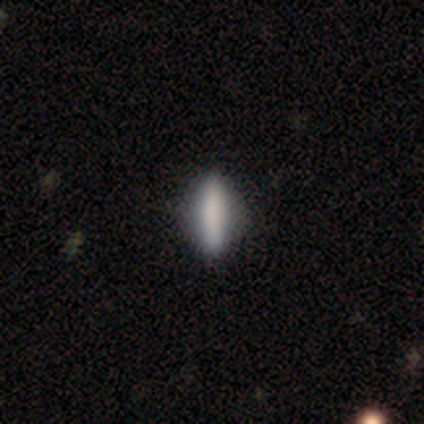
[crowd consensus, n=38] Smooth or featured? 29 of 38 (76%) said smooth. How rounded? 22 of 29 (76%) said cigar-shaped. Merging? 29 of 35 (83%) said none.